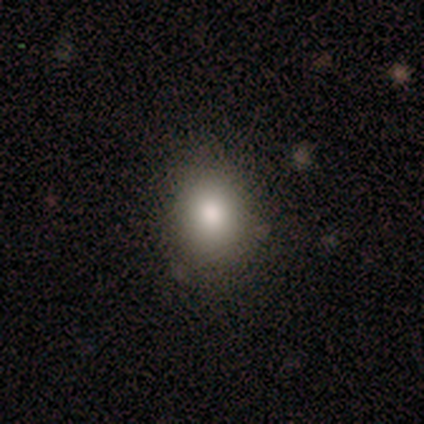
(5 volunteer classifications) Smooth or featured? 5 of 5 (100%) said smooth. How rounded? 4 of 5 (80%) said round. Merging? 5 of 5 (100%) said none.